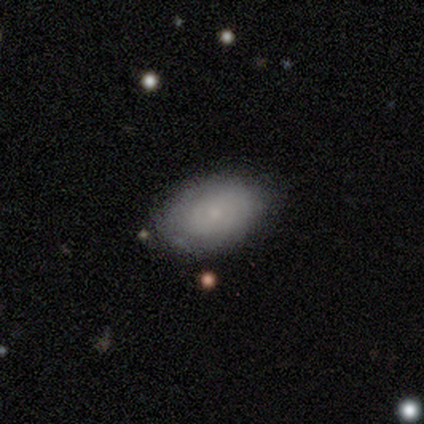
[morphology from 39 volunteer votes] Smooth or featured? 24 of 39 (62%) said smooth. How rounded? 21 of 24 (88%) said in between. Merging? 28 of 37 (76%) said none.